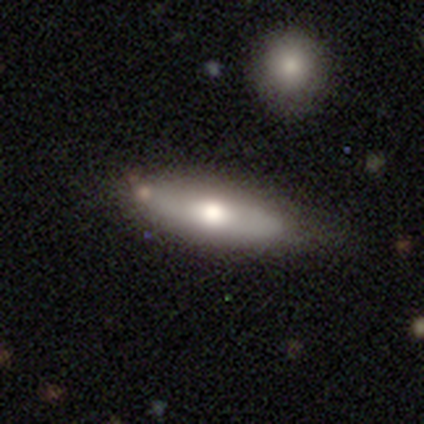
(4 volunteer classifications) Smooth or featured? smooth (50%, tied with featured or disk)
How rounded? cigar-shaped (100%)
Merging? none (50%)